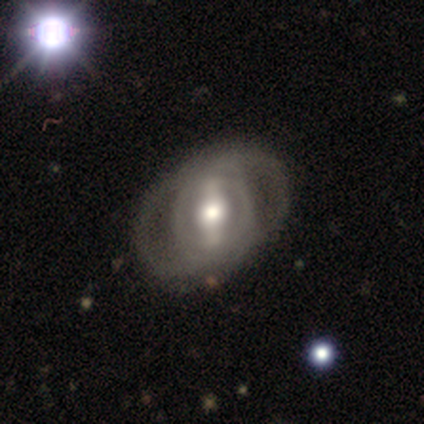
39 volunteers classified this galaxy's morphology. A featured or disk galaxy (82%) with a strong bar (72%), 2 (59%) medium (53%) spiral arms (53%) and a moderate central bulge (69%). Merging: none (76%).